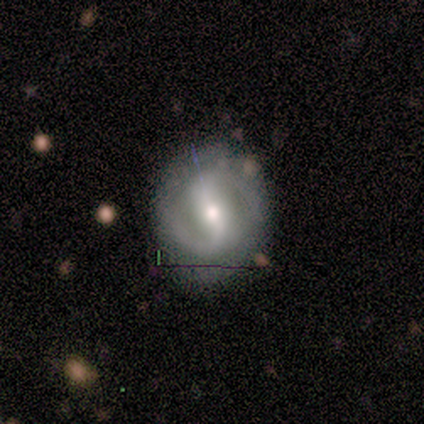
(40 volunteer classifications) smooth-or-featured: featured or disk: 88% | smooth: 12% | star or artifact: 0%
  disk-edge-on: no: 97% | yes: 3%
    bar: strong: 56% | weak: 29% | no: 15%
    has-spiral-arms: yes: 94% | no: 6%
      spiral-winding: medium: 56% | loose: 25% | tight: 19%
      spiral-arm-count: 2: 91% | can't tell: 9% | 1: 0% | 3: 0% | 4: 0% | more than 4: 0%
    bulge-size: moderate: 53% | small: 41% | large: 6% | dominant: 0% | none: 0%
  merging: none: 72% | minor disturbance: 18% | major disturbance: 8% | merger: 2%